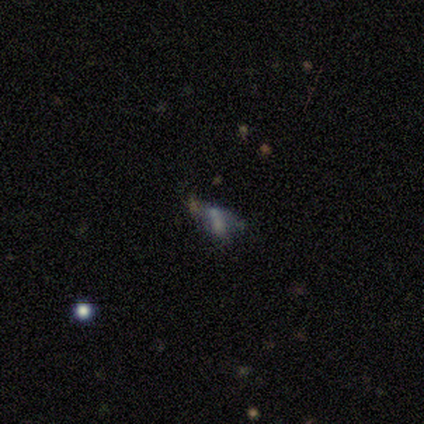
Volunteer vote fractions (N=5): Volunteers were most divided on "smooth or featured": smooth: 60%, star or artifact: 40%, featured or disk: 0%. More confident: how rounded — in between (100%); merging — minor disturbance (67%).